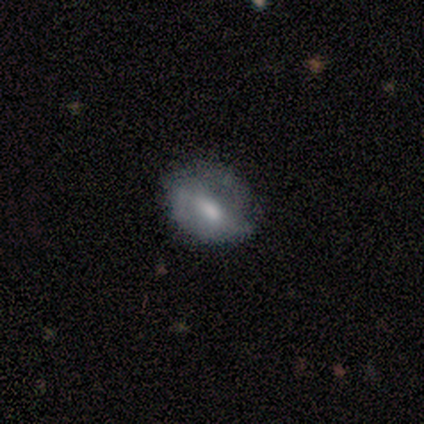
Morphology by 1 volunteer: Smooth or featured? smooth (100%)
How rounded? in between (100%)
Merging? none (100%)